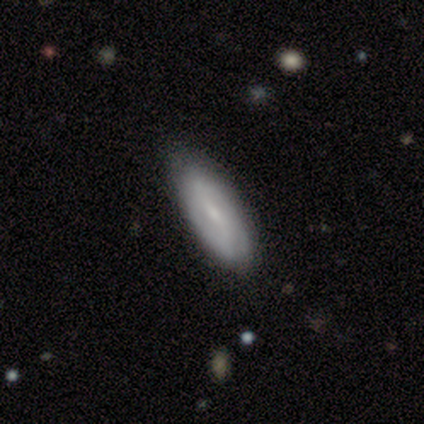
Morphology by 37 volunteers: smooth-or-featured: smooth: 51% | featured or disk: 46% | star or artifact: 3%
  how-rounded: in between: 89% | cigar-shaped: 11% | round: 0%
  merging: none: 86% | minor disturbance: 6% | major disturbance: 6% | merger: 3%